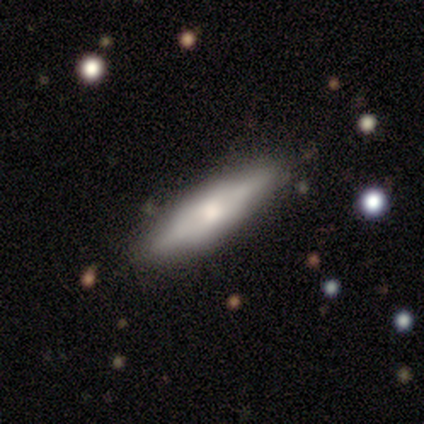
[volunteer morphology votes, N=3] A smooth galaxy with no disk features (33%, tied with featured or disk and star or artifact) that is in between round and cigar-shaped (100%). Merging: none (50%, tied with minor disturbance).